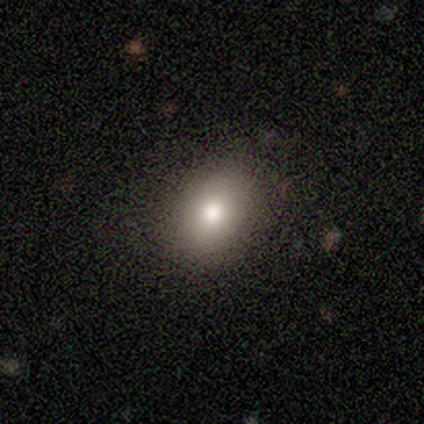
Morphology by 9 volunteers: Q: Smooth or featured?
A: smooth (100%)
Q: How rounded?
A: in between (56%); runner-up: round (44%)
Q: Merging?
A: none (78%); runner-up: minor disturbance (22%)